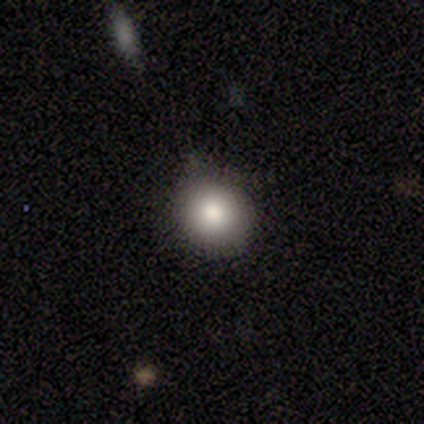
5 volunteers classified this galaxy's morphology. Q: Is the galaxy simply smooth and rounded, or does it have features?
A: smooth — 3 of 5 (60%).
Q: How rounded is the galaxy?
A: round — 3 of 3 (100%).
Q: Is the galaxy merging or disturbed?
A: none — 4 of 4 (100%).